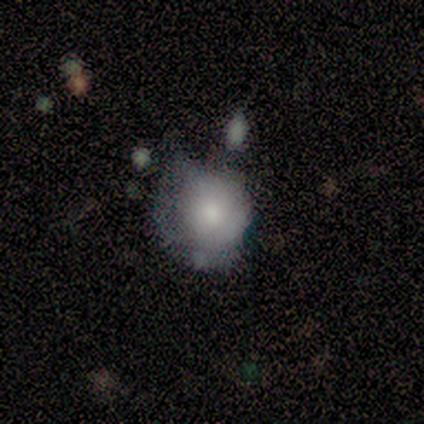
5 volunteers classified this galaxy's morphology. A smooth galaxy with no disk features (80%) that is round (100%).

Vote fractions:
- Smooth or featured? smooth: 80% / featured or disk: 20% / star or artifact: 0%
- How rounded? round: 100% / in between: 0% / cigar-shaped: 0%
- Merging? minor disturbance: 60% / none: 20% / major disturbance: 20% / merger: 0%